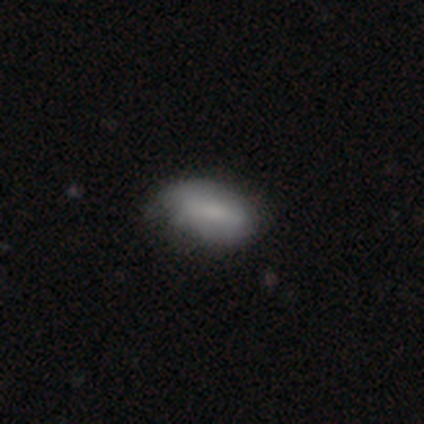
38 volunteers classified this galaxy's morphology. smooth-or-featured: smooth: 66% | featured or disk: 29% | star or artifact: 5%
  how-rounded: in between: 100% | round: 0% | cigar-shaped: 0%
  merging: minor disturbance: 42% | none: 31% | major disturbance: 0% | merger: 0%